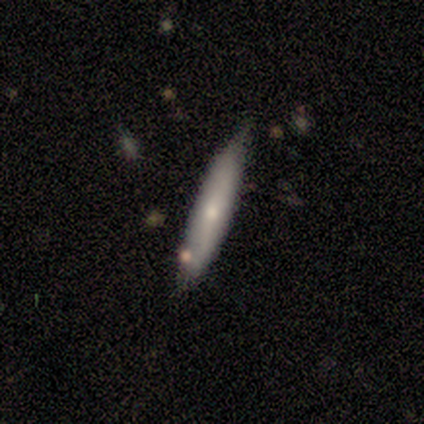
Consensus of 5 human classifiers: Overall: smooth (60%; featured or disk 40%). How rounded: cigar-shaped (100%). Merging: none (80%).